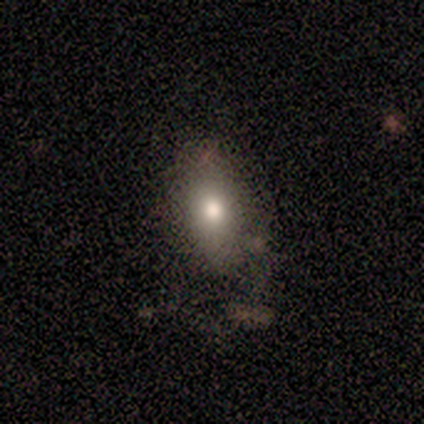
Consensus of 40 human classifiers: Smooth or featured? smooth (72%)
How rounded? in between (86%)
Merging? none (58%)